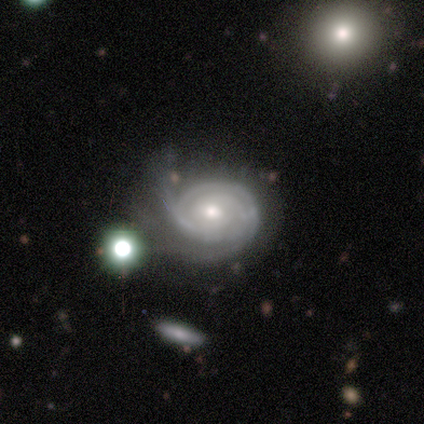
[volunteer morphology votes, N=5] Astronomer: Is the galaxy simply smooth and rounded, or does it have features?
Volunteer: featured or disk — 100%.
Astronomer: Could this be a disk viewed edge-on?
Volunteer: no — 100%.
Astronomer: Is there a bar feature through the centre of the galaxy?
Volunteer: no — 80%.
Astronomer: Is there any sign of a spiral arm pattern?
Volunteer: yes — 100%.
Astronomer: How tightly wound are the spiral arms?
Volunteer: medium — 60% (runner-up: tight, 40%).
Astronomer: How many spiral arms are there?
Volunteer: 2 — 60%.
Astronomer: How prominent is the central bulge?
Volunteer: small — 60% (runner-up: moderate, 40%).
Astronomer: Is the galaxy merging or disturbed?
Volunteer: major disturbance — 40% (runner-up: none, 20%).